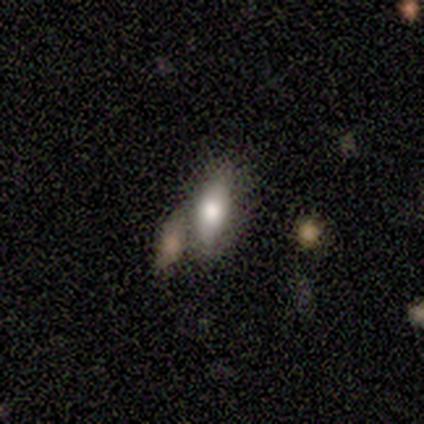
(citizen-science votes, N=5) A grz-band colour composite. It shows a smooth galaxy with no disk features (100%) that is in between round and cigar-shaped (80%). Merging: none (100%).